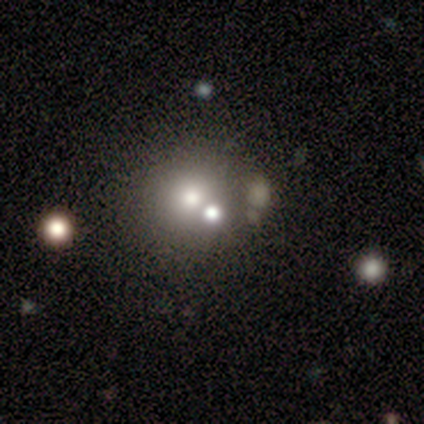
smooth_or_featured: star or artifact (p=0.60) [alt: smooth p=0.40]